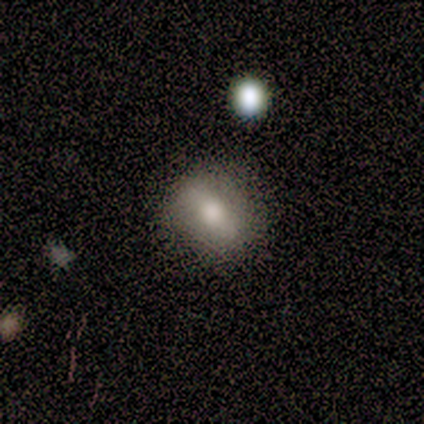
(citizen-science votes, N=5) Smooth or featured: smooth — 80% (star or artifact — 20%)
How rounded: round — 75% (in between — 25%)
Merging: none — 50% (minor disturbance — 25%)